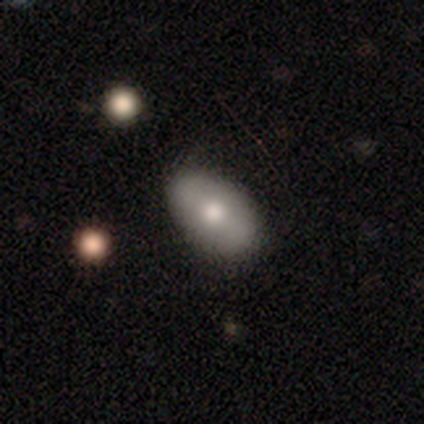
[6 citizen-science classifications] A smooth galaxy with no disk features (67%) that is in between round and cigar-shaped (75%). Merging: none (83%).